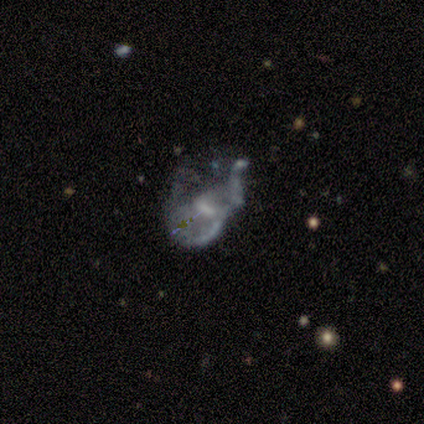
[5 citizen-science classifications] featured or disk 80%, smooth 20%, star or artifact 0%. Down the decision tree: edge-on disk — no (100%); bar — no (50%); spiral arms — no (75%); bulge size — none (75%); merging — major disturbance (60%).